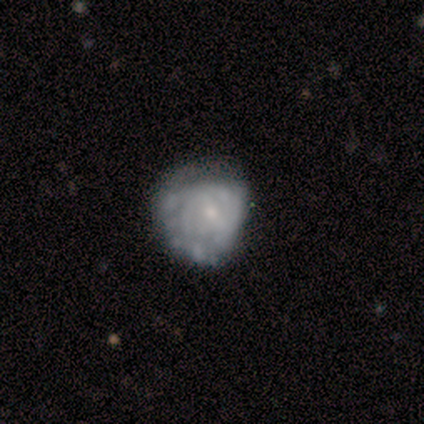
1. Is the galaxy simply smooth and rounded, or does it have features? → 80% featured or disk, 20% star or artifact, 0% smooth.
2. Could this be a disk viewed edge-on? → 100% no, 0% yes.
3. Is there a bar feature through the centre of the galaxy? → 100% no, 0% strong, 0% weak.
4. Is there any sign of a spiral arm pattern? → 50% yes (tied), 50% no (tied).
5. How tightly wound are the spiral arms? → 50% tight (tied), 50% medium (tied), 0% loose.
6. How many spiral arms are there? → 50% 2 (tied), 50% 3 (tied), 0% 1, 0% 4, 0% more than 4, 0% can't tell.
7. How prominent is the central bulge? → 75% small, 25% moderate, 0% dominant, 0% large, 0% none.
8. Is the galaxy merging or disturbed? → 50% none (tied), 50% minor disturbance (tied), 0% major disturbance, 0% merger.